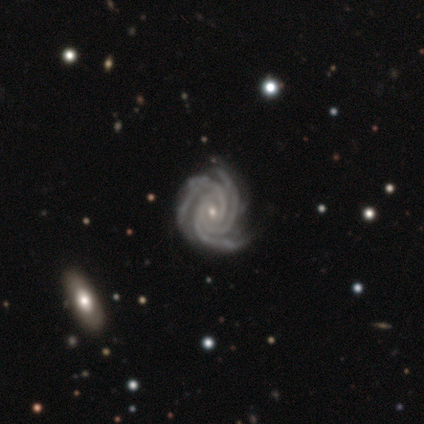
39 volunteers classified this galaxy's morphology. A featured or disk galaxy (100%) with no bar (69%), 3 (95%) tight (85%) spiral arms (100%) and a small central bulge (74%). Merging: none (85%).